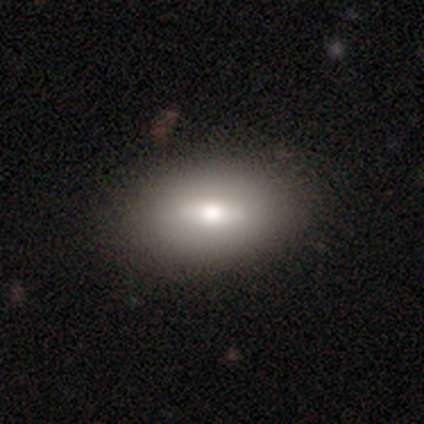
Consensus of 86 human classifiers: Smooth or featured: smooth — 56% (featured or disk — 38%)
How rounded: in between — 83% (round — 10%)
Merging: none — 78% (minor disturbance — 11%)